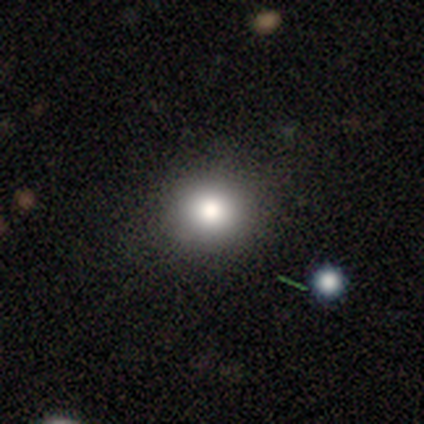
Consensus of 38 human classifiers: A smooth galaxy with no disk features (63%) that is round (92%).

Vote fractions:
- Smooth or featured? smooth: 63% / star or artifact: 26% / featured or disk: 11%
- How rounded? round: 92% / in between: 8% / cigar-shaped: 0%
- Merging? none: 89% / major disturbance: 7% / merger: 4% / minor disturbance: 0%